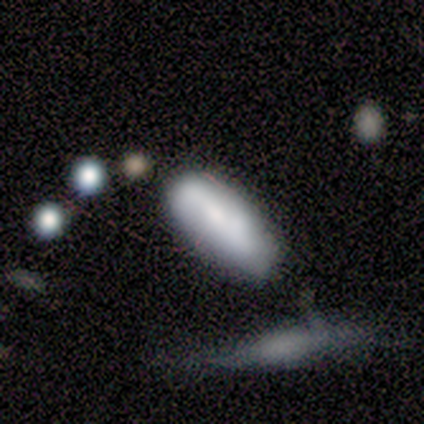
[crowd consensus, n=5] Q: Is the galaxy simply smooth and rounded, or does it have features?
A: smooth — 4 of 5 (80%).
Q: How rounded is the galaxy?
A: in between — 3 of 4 (75%).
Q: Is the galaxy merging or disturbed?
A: none — 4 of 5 (80%).